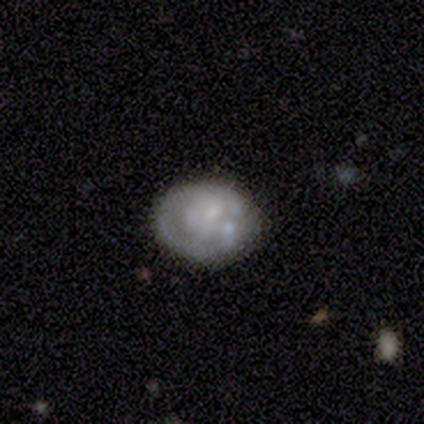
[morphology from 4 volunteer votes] Volunteers were most divided on "smooth or featured": star or artifact: 50%, smooth: 25%, featured or disk: 25%.